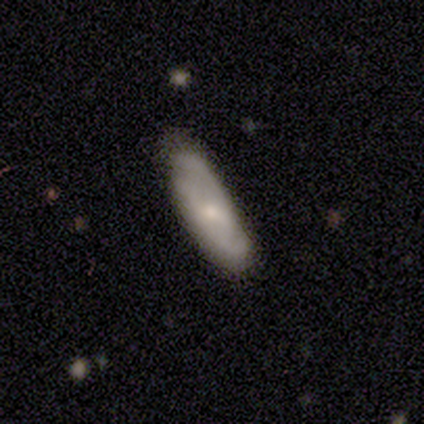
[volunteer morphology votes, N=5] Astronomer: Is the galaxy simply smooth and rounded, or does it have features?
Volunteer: smooth — 40%, tied with featured or disk at 40%.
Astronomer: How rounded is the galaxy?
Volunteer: in between — 100%.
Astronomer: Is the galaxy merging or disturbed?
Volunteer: none — 75%.